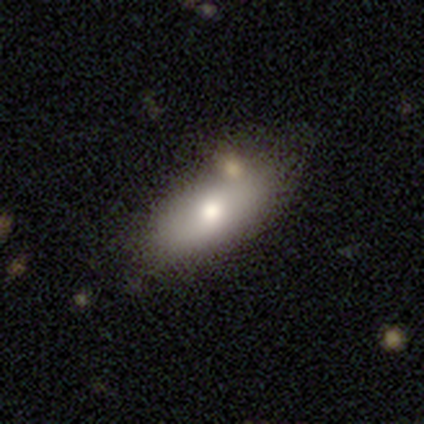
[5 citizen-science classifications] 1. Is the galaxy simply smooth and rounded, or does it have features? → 60% smooth, 20% featured or disk, 20% star or artifact.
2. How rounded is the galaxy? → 100% in between, 0% round, 0% cigar-shaped.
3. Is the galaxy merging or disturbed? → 100% none, 0% minor disturbance, 0% major disturbance, 0% merger.